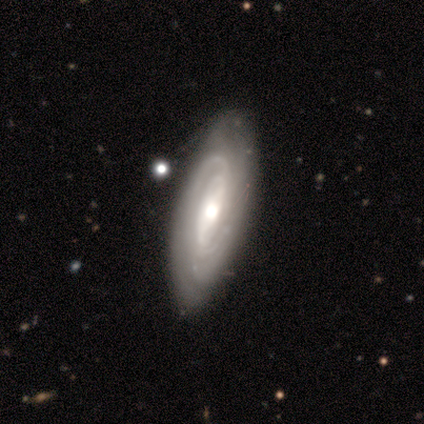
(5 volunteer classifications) Smooth or featured? featured or disk (100%)
Edge-on disk? no (100%)
Bar? strong (40%, tied with weak)
Spiral arms? yes (100%)
Spiral winding? tight (40%, tied with loose)
Spiral arm count? can't tell (60%)
Bulge size? moderate (100%)
Merging? none (80%)